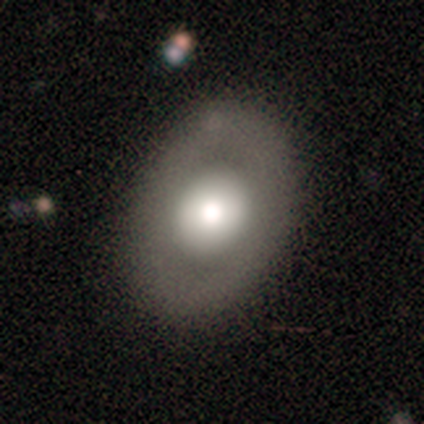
smooth 49%, featured or disk 44%, star or artifact 6%. Down the decision tree: how rounded — in between (65%); merging — none (86%).